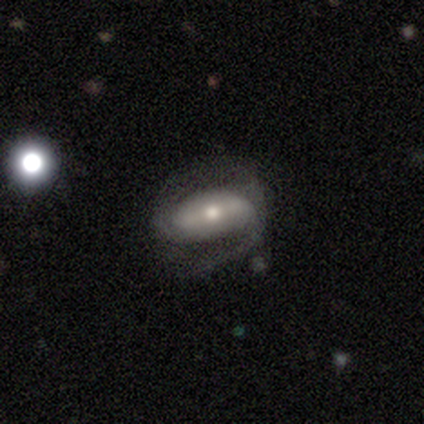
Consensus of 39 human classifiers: Smooth or featured? featured or disk (69%)
Edge-on disk? no (89%)
Bar? strong (46%)
Spiral arms? yes (88%)
Spiral winding? loose (38%)
Spiral arm count? 2 (57%)
Bulge size? moderate (67%)
Merging? none (50%)